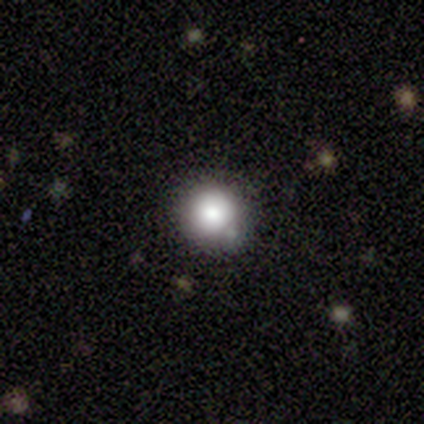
Q: Smooth or featured?
A: smooth (100%)
Q: How rounded?
A: round (100%)
Q: Merging?
A: none (80%); runner-up: merger (20%)